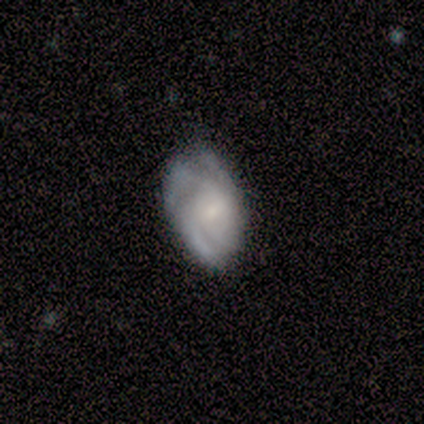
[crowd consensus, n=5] This is clearly a featured or disk galaxy (100%). It is clearly not viewed edge-on (100%). Bar: clearly no (80%). Spiral arm pattern: clearly yes (100%). Spiral arm count: likely 3 (60%). Spiral winding: likely tight (60%). Central bulge: marginally small (40%). Merging: likely none (60%).